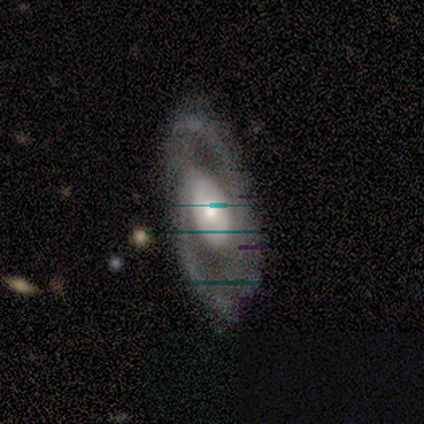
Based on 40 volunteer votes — Smooth or featured?
  - featured or disk: 88% *
  - smooth: 8%
  - star or artifact: 5%
Edge-on disk?
  - no: 91% *
  - yes: 9%
Bar?
  - no: 62% *
  - weak: 22%
  - strong: 16%
Spiral arms?
  - yes: 97% *
  - no: 3%
Spiral winding?
  - medium: 55% *
  - tight: 26%
  - loose: 19%
Spiral arm count?
  - 2: 90% *
  - 1: 6%
  - 3: 3%
  - 4: 0%
  - more than 4: 0%
  - can't tell: 0%
Bulge size?
  - moderate: 72% *
  - large: 19%
  - small: 6%
  - none: 3%
  - dominant: 0%
Merging?
  - none: 68% *
  - minor disturbance: 26%
  - major disturbance: 5%
  - merger: 0%